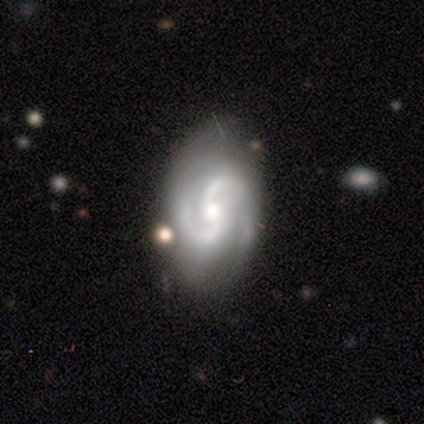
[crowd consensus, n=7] smooth_or_featured: featured or disk (p=0.86) [alt: star or artifact p=0.14]
disk_edge_on: no (p=1.00)
bar: no (p=0.50) [alt: weak p=0.33]
has_spiral_arms: yes (p=1.00)
spiral_winding: medium (p=1.00)
spiral_arm_count: 2 (p=0.50) [alt: 3 p=0.33]
bulge_size: moderate (p=0.67) [alt: small p=0.33]
merging: none (p=0.50) [alt: minor disturbance p=0.33]